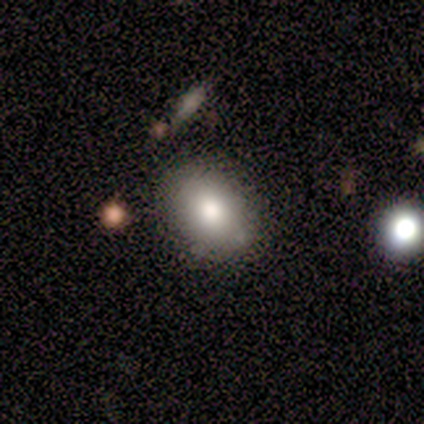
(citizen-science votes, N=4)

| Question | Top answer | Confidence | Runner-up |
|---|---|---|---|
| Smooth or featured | smooth | 50% | featured or disk (25%) |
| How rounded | round | 50% | tied: in between (50%) |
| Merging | none | 100% | — |